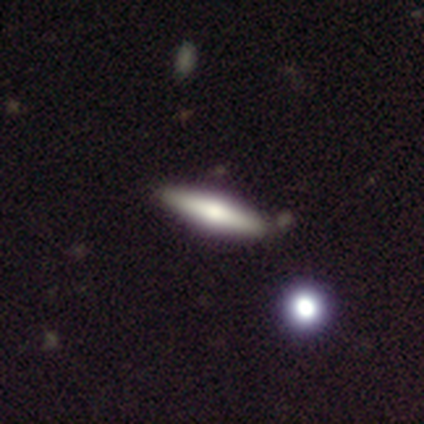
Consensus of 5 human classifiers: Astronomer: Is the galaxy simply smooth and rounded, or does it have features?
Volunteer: featured or disk — 60% (runner-up: smooth, 40%).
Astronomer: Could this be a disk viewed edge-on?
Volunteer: yes — 100%.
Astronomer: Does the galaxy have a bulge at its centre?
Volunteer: rounded — 100%.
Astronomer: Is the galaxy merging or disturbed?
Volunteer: none — 40%, tied with minor disturbance at 40%.